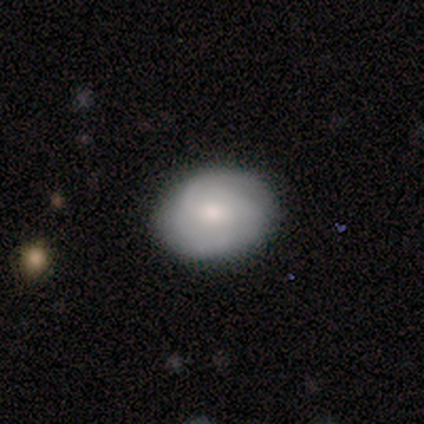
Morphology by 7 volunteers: Smooth or featured? 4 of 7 (57%) said smooth. How rounded? 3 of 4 (75%) said in between. Merging? 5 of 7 (71%) said none.